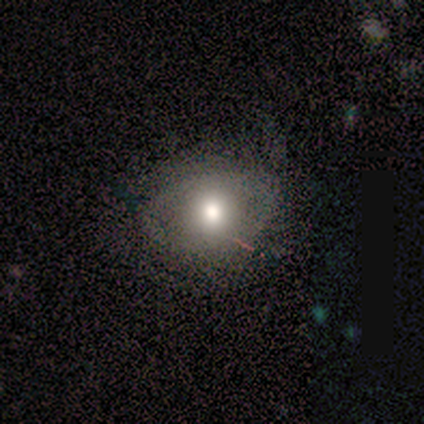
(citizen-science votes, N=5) Overall: featured or disk (60%; smooth 40%). Edge-on disk: no (100%). Bar: no (100%). Spiral arms: no (100%). Bulge size: moderate (67%; large 33%). Merging: none (60%; minor disturbance 20%).